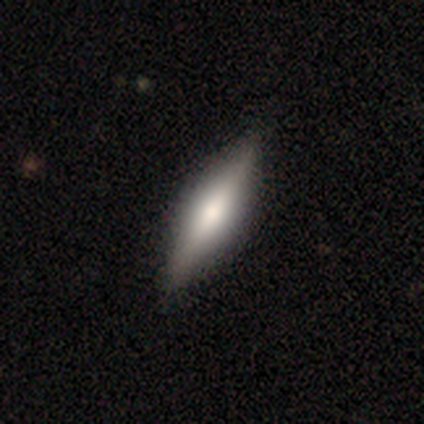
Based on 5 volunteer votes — This is likely a smooth galaxy (60%). How rounded: clearly cigar-shaped (100%). Merging: clearly none (100%).